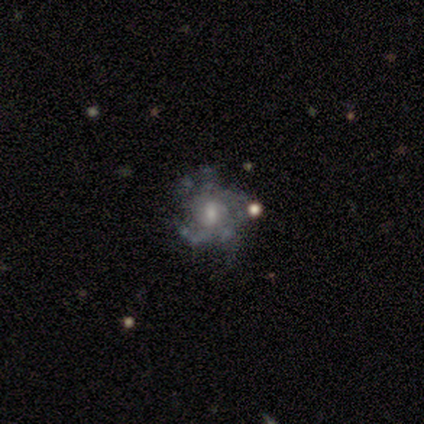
A featured or disk galaxy (89%) with no bar (64%), 4 (26%, tied with can't tell) tight (52%) spiral arms (70%) and a moderate central bulge (52%). Merging: none (71%).